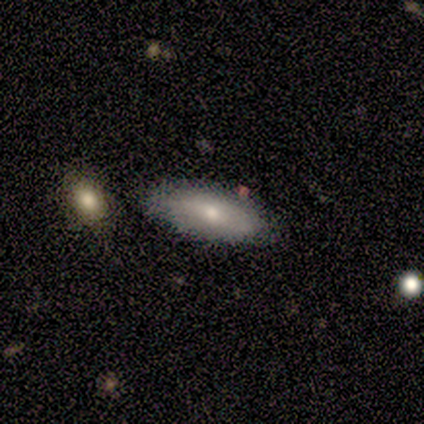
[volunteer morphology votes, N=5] Overall: smooth (60%; featured or disk 40%). How rounded: in between (67%; cigar-shaped 33%). Merging: none (80%).